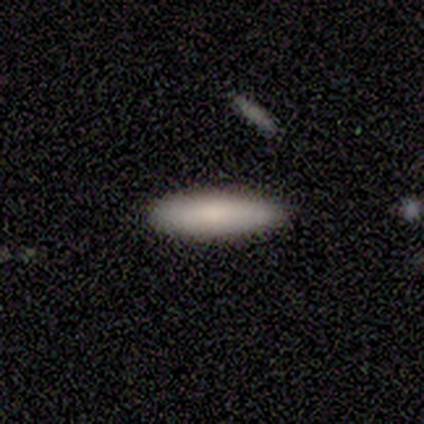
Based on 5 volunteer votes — smooth 60%, featured or disk 40%, star or artifact 0%. Down the decision tree: how rounded — in between (67%); merging — none (80%).